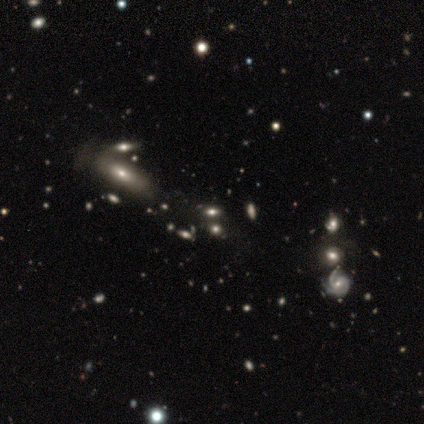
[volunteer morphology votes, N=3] Smooth or featured? smooth (100%)
How rounded? in between (67%)
Merging? none (100%)